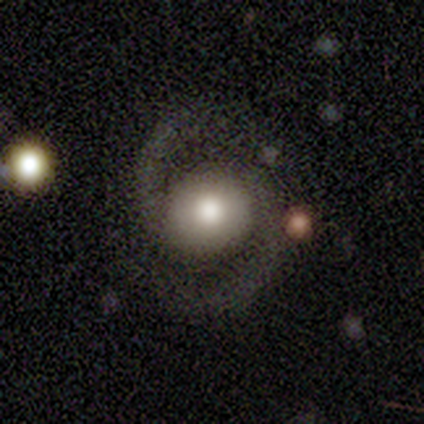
Smooth or featured? featured or disk (100%)
Edge-on disk? no (100%)
Bar? no (80%)
Spiral arms? yes (100%)
Spiral winding? medium (80%)
Spiral arm count? 2 (100%)
Bulge size? moderate (60%)
Merging? none (80%)